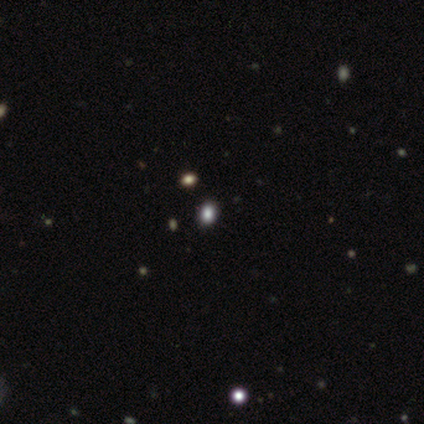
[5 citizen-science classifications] smooth-or-featured: smooth: 40% (tied) | star or artifact: 40% (tied) | featured or disk: 20%
  how-rounded: round: 50% (tied) | in between: 50% (tied) | cigar-shaped: 0%
  merging: none: 100% | minor disturbance: 0% | major disturbance: 0% | merger: 0%